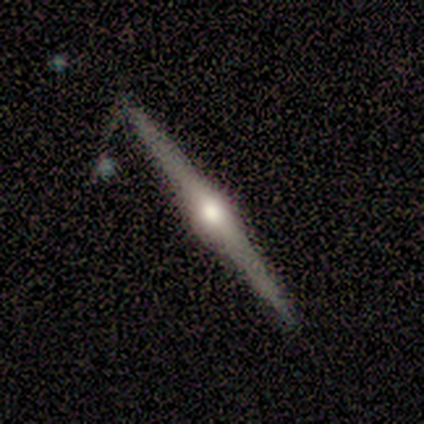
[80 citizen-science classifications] Q: Smooth or featured?
A: featured or disk (89%); runner-up: smooth (9%)
Q: Edge-on disk?
A: yes (100%)
Q: Edge-on bulge?
A: rounded (89%); runner-up: boxy (8%)
Q: Merging?
A: none (77%); runner-up: minor disturbance (15%)